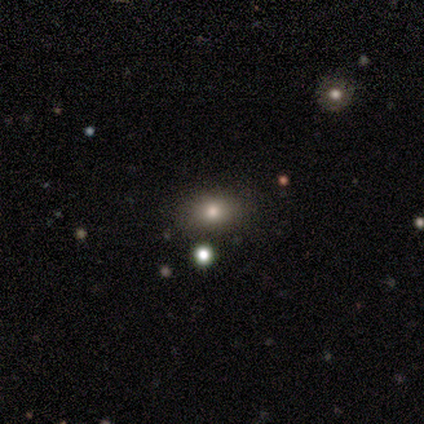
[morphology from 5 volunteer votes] Smooth or featured? smooth (100%)
How rounded? in between (80%)
Merging? none (60%)